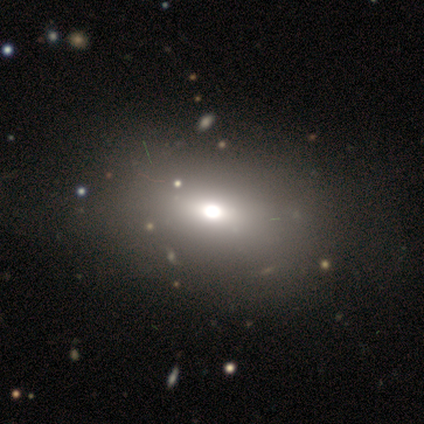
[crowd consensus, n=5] A smooth galaxy with no disk features (60%) that is round (67%). Merging: none (60%).